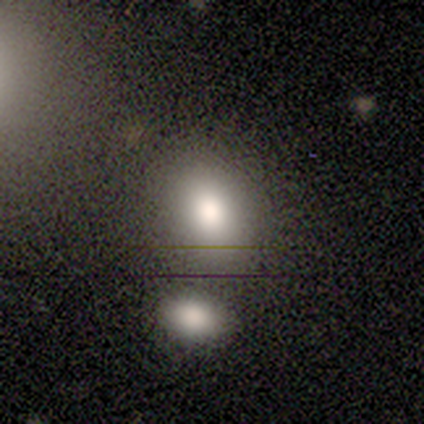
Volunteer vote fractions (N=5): Overall: smooth (60%; star or artifact 40%). How rounded: in between (67%; round 33%). Merging: none (67%; minor disturbance 33%).